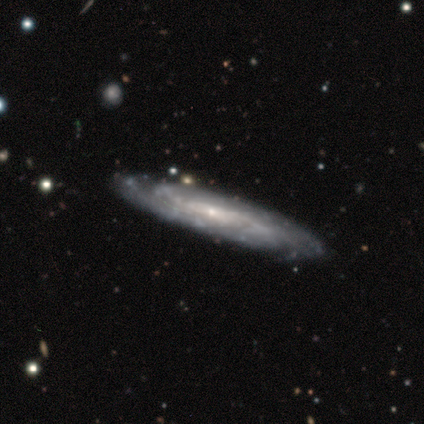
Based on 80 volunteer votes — This appears to be a featured or disk galaxy (90%) with no bar (61%), tight (60%) spiral arms (95%) and a small central bulge (77%). Merging: none (40%).